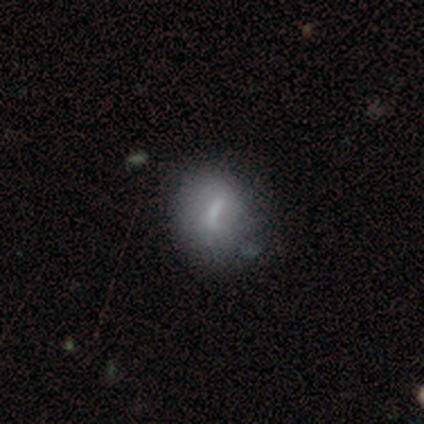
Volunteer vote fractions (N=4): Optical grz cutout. It shows a smooth galaxy with no disk features (75%) that is round (67%). Merging: none (75%).